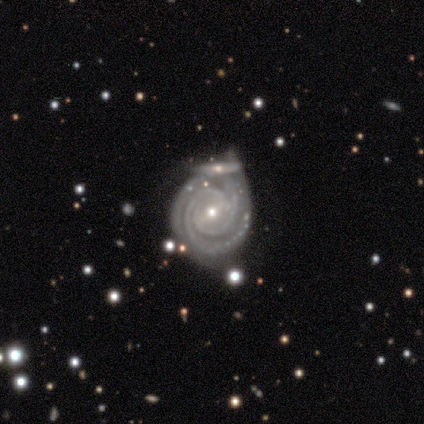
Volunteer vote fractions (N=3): Morphology: type=featured or disk (100%); edge-on=no (67%); bar=strong (50%, tied with weak); spiral arms=yes (100%); winding=tight (100%); arm count=2 (100%); bulge=moderate (50%, tied with small); merging=none (67%).